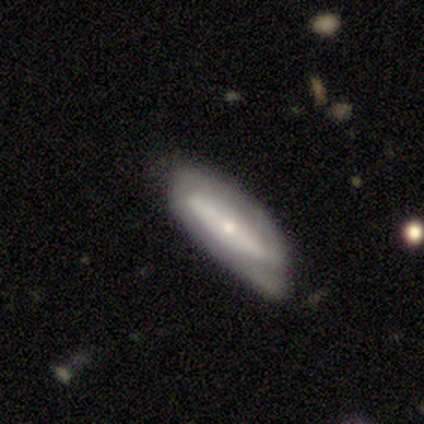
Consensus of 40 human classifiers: Q: Smooth or featured?
A: featured or disk (52%); runner-up: smooth (42%)
Q: Edge-on disk?
A: no (71%); runner-up: yes (29%)
Q: Bar?
A: no (67%); runner-up: strong (20%)
Q: Spiral arms?
A: no (67%); runner-up: yes (33%)
Q: Bulge size?
A: small (67%); runner-up: moderate (27%)
Q: Merging?
A: none (55%); runner-up: minor disturbance (32%)